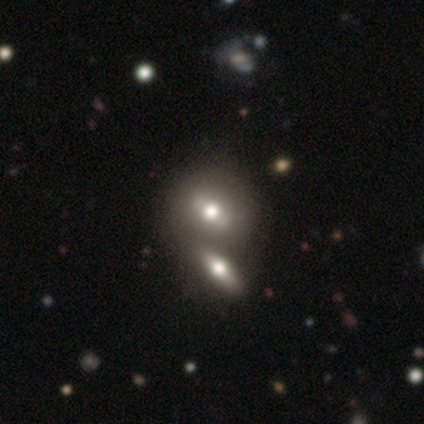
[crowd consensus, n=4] Morphology: type=smooth (50%, tied with featured or disk); roundness=round (50%, tied with in between); merging=merger (50%).